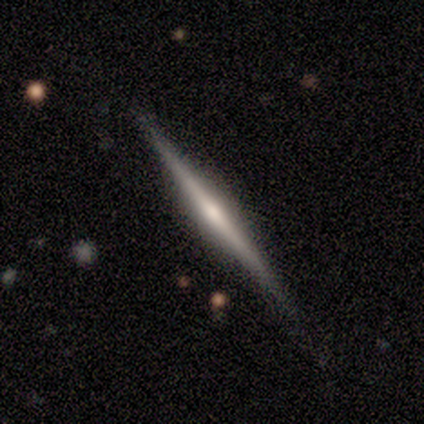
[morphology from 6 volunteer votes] This appears to be a featured or disk galaxy (100%) viewed edge-on (100%) with a rounded central bulge (100%). Merging: none (100%).